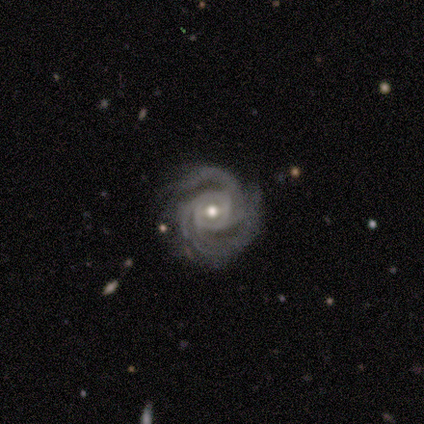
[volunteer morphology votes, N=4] Smooth or featured? 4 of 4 (100%) said featured or disk. Edge-on disk? 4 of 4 (100%) said no. Bar? 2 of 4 (50%) said no. Spiral arms? 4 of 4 (100%) said yes. Spiral winding? 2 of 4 (50%, tied with medium) said tight. Spiral arm count? 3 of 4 (75%) said 3. Bulge size? 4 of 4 (100%) said moderate. Merging? 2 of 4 (50%) said minor disturbance.